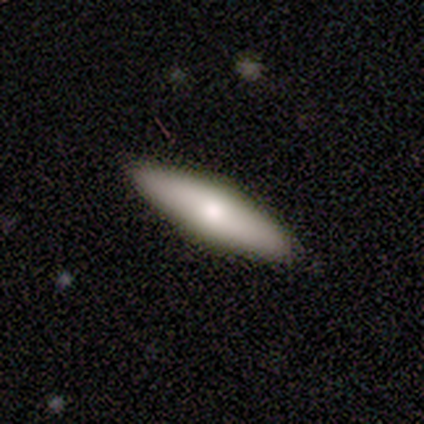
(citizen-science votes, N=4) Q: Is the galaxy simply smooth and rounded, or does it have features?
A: smooth — 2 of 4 (50%, tied with featured or disk).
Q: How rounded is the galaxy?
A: cigar-shaped — 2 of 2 (100%).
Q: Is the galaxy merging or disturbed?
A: none — 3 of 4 (75%).